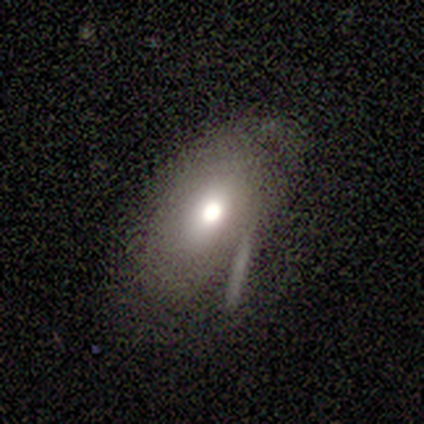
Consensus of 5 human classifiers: Overall: smooth (60%; featured or disk 40%). How rounded: in between (100%). Merging: none (60%; minor disturbance 20%).